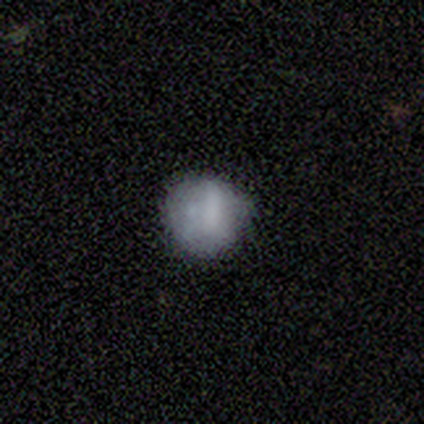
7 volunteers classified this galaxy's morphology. type=smooth (71%); roundness=round (100%); merging=none (50%, tied with minor disturbance).